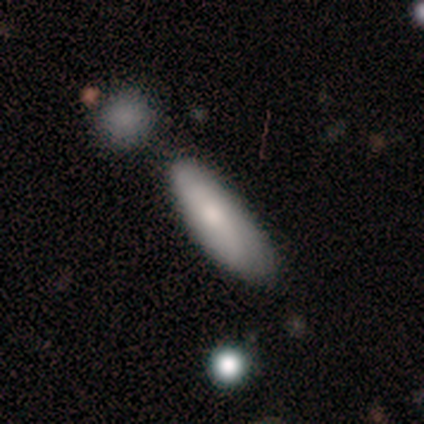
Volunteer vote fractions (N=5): A smooth galaxy with no disk features (80%) that is cigar-shaped (100%). Merging: none (80%).